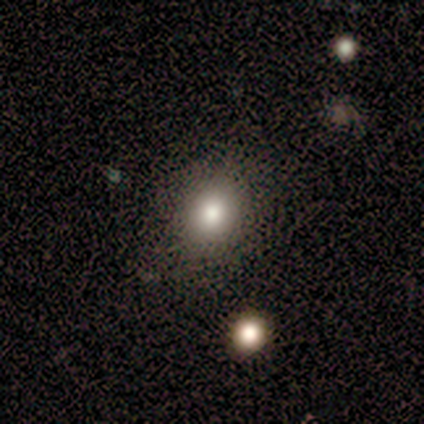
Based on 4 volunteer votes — This appears to be a smooth galaxy with no disk features (100%) that is round (75%). Merging: none (50%, tied with major disturbance).